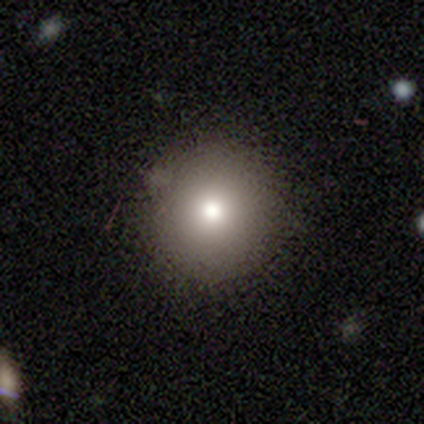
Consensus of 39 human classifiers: smooth 62%, star or artifact 26%, featured or disk 13%. Down the decision tree: how rounded — round (92%); merging — none (86%).